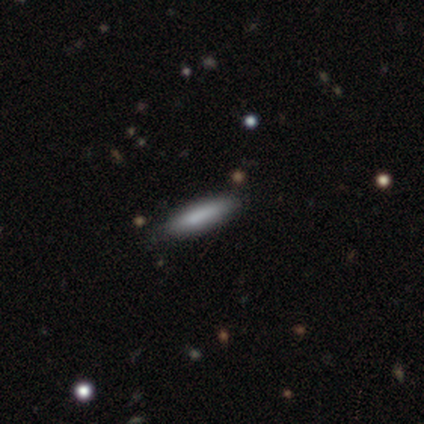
Smooth or featured? 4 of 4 (100%) said smooth. How rounded? 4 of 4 (100%) said cigar-shaped. Merging? 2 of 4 (50%) said none.